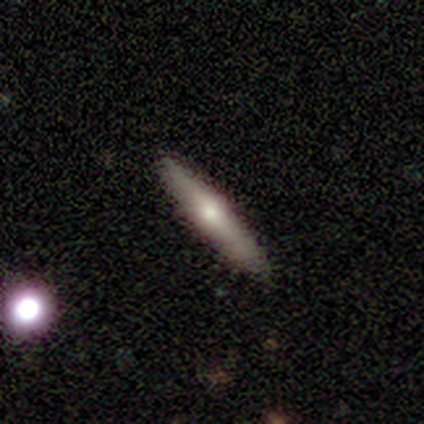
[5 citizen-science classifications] Smooth or featured?
  - smooth: 60% *
  - featured or disk: 40%
  - star or artifact: 0%
How rounded?
  - cigar-shaped: 100% *
  - round: 0%
  - in between: 0%
Merging?
  - none: 100% *
  - minor disturbance: 0%
  - major disturbance: 0%
  - merger: 0%